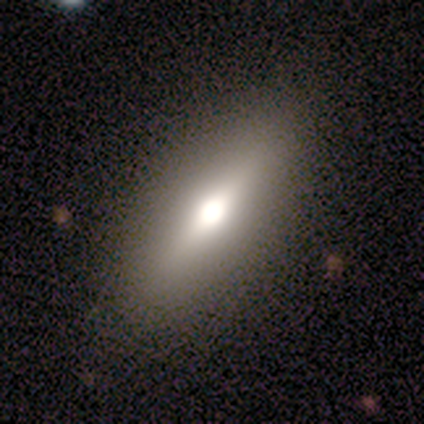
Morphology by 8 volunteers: smooth-or-featured: smooth: 75% | featured or disk: 12% | star or artifact: 12%
  how-rounded: in between: 83% | cigar-shaped: 17% | round: 0%
  merging: none: 71% | minor disturbance: 29% | major disturbance: 0% | merger: 0%